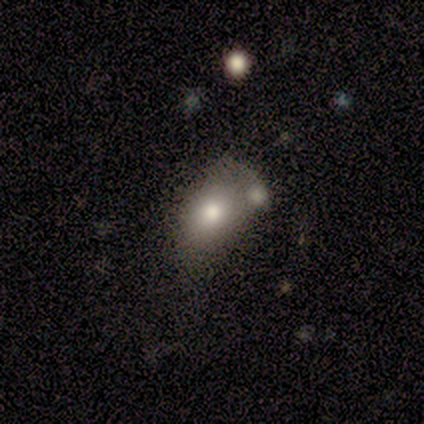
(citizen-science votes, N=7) A smooth galaxy with no disk features (100%) that is in between round and cigar-shaped (100%). Merging: merger (57%).